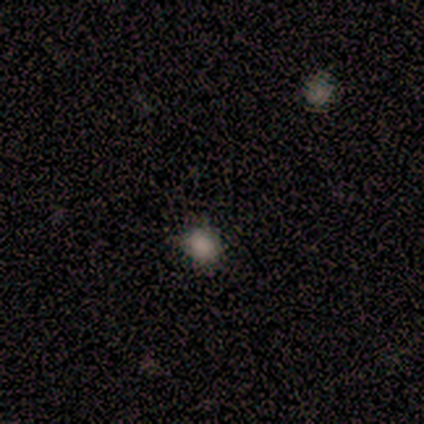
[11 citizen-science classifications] smooth-or-featured: smooth: 73% | star or artifact: 27% | featured or disk: 0%
  how-rounded: round: 88% | in between: 12% | cigar-shaped: 0%
  merging: none: 75% | minor disturbance: 25% | major disturbance: 0% | merger: 0%